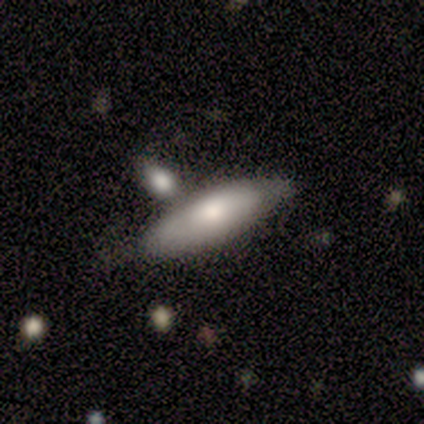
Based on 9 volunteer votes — This is likely a smooth galaxy (67%). How rounded: likely cigar-shaped (67%). Merging: possibly merger (56%).